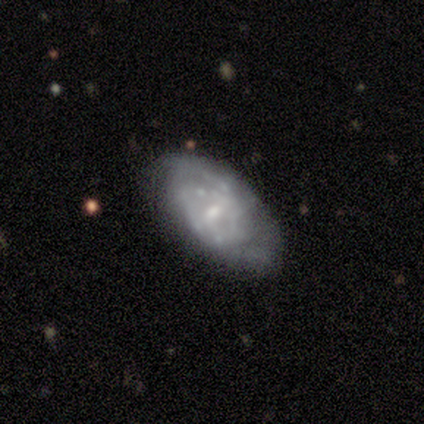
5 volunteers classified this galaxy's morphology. smooth-or-featured: featured or disk: 80% | smooth: 20% | star or artifact: 0%
  disk-edge-on: no: 100% | yes: 0%
    bar: weak: 50% (tied) | no: 50% (tied) | strong: 0%
    has-spiral-arms: yes: 75% | no: 25%
      spiral-winding: tight: 67% | loose: 33% | medium: 0%
      spiral-arm-count: can't tell: 100% | 1: 0% | 2: 0% | 3: 0% | 4: 0% | more than 4: 0%
    bulge-size: small: 75% | none: 25% | dominant: 0% | large: 0% | moderate: 0%
  merging: none: 60% | minor disturbance: 40% | major disturbance: 0% | merger: 0%